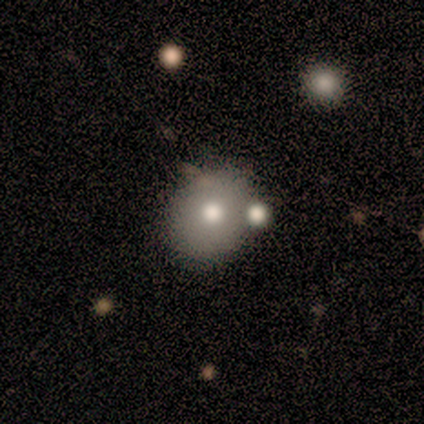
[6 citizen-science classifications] This appears to be a smooth galaxy with no disk features (67%) that is round (75%). Merging: none (83%).